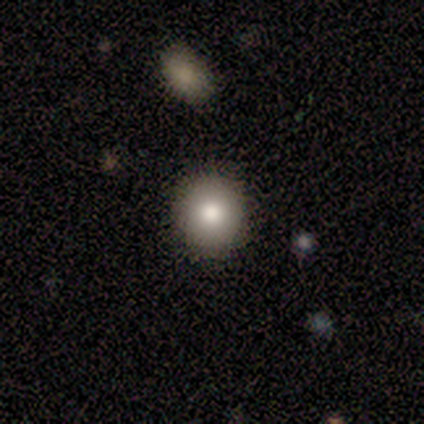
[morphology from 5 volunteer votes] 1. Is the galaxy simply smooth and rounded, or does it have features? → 100% smooth, 0% featured or disk, 0% star or artifact.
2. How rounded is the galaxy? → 100% round, 0% in between, 0% cigar-shaped.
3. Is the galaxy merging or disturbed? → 100% none, 0% minor disturbance, 0% major disturbance, 0% merger.